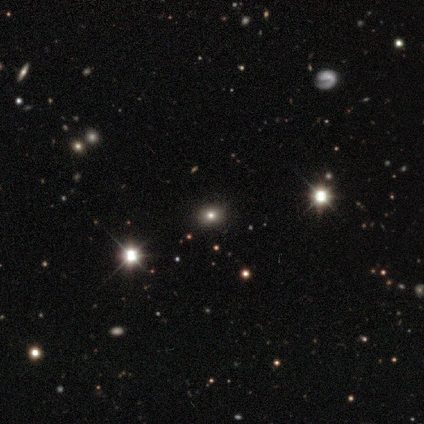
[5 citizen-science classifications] Smooth or featured: smooth — 60% (star or artifact — 40%)
How rounded: in between — 67% (round — 33%)
Merging: none — 100%